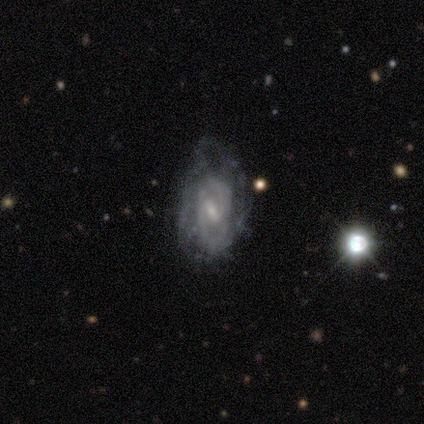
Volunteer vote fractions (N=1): Consensus on every question: smooth or featured — star or artifact (100%).